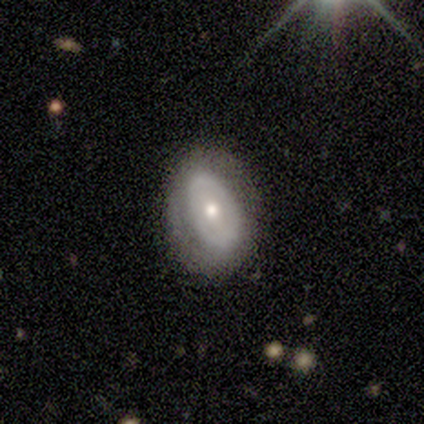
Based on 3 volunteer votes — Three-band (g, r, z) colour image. It shows a featured or disk galaxy (67%) with a weak bar (50%, tied with no), 2 (100%) tight (50%, tied with medium) spiral arms (100%) and a moderate central bulge (50%, tied with small). Merging: none (33%, tied with minor disturbance and major disturbance).